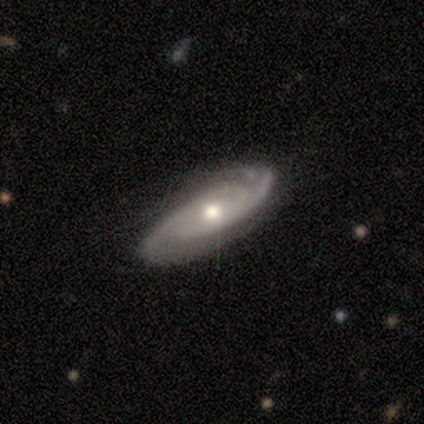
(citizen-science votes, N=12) Volunteers were most divided on "spiral winding": medium: 50%, tight: 30%, loose: 20%. More confident: bar — no (100%); spiral arms — yes (100%); smooth or featured — featured or disk (92%); edge-on disk — no (91%); bulge size — moderate (90%); spiral arm count — 2 (80%); merging — none (75%).